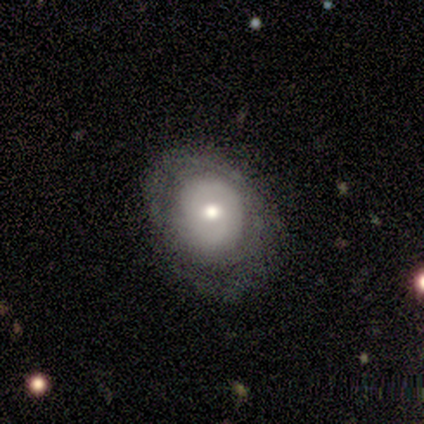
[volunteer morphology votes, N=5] Q: Smooth or featured?
A: featured or disk (80%); runner-up: smooth (20%)
Q: Edge-on disk?
A: no (100%)
Q: Bar?
A: weak (50%); tied with: no (50%)
Q: Spiral arms?
A: yes (50%); tied with: no (50%)
Q: Spiral winding?
A: tight (50%); tied with: medium (50%)
Q: Spiral arm count?
A: 2 (100%)
Q: Bulge size?
A: moderate (75%); runner-up: small (25%)
Q: Merging?
A: none (40%); tied with: minor disturbance (40%)